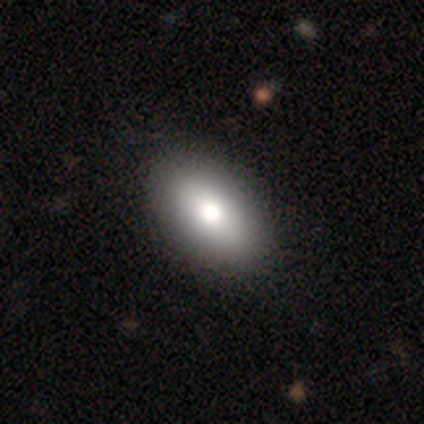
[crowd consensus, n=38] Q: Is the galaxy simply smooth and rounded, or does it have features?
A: smooth — 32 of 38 (84%).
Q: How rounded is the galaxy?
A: in between — 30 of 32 (94%).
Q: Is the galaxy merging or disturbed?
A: none — 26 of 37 (70%).